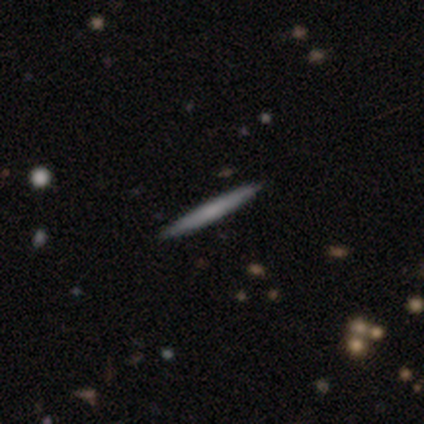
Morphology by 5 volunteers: A smooth galaxy with no disk features (60%) that is cigar-shaped (100%). Merging: none (100%).